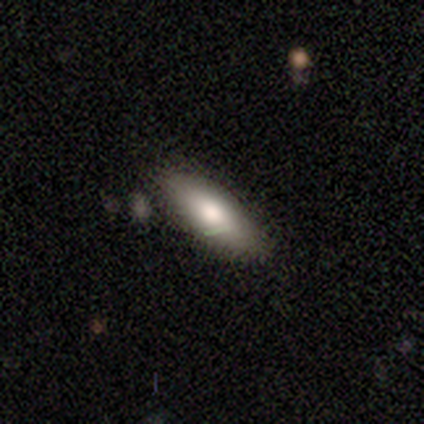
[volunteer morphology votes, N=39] A smooth galaxy with no disk features (82%) that is in between round and cigar-shaped (66%). Merging: none (81%).